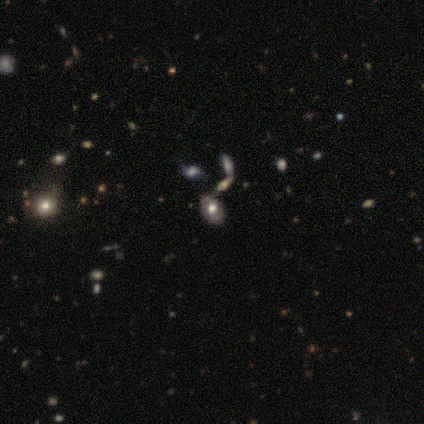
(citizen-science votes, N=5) Smooth or featured: smooth — 80% (star or artifact — 20%)
How rounded: in between — 100%
Merging: minor disturbance — 75% (none — 25%)